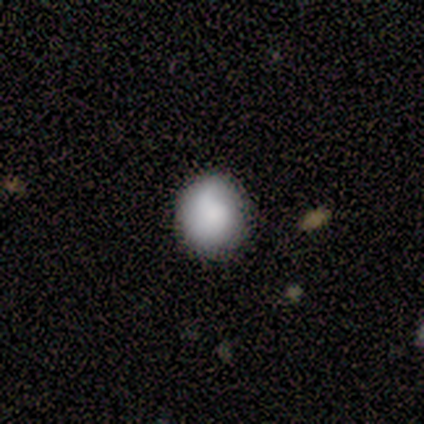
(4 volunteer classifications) Overall: smooth (75%). How rounded: round (67%; in between 33%). Merging: none (50%, tied with minor disturbance).